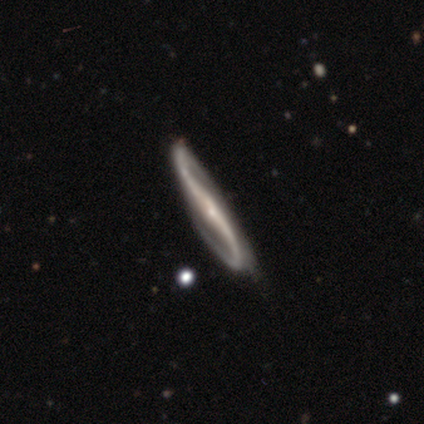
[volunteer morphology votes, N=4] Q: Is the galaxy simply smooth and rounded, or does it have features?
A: featured or disk — 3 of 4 (75%).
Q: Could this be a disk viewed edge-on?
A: no — 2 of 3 (67%).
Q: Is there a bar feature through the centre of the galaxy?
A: strong — 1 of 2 (50%, tied with no).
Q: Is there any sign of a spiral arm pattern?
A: yes — 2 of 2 (100%).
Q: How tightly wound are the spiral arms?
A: loose — 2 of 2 (100%).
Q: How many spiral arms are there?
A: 2 — 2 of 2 (100%).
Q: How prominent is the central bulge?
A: small — 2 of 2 (100%).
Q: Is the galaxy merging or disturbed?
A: none — 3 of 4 (75%).